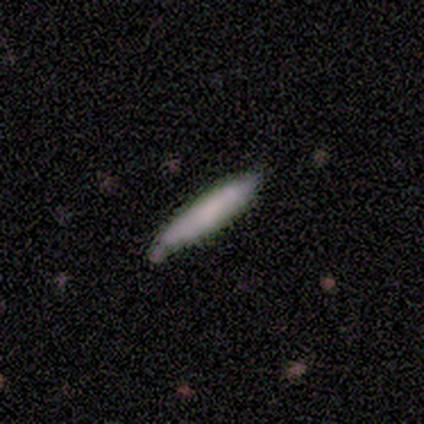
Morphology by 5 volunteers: Overall: smooth (100%). How rounded: cigar-shaped (60%; in between 40%). Merging: none (100%).